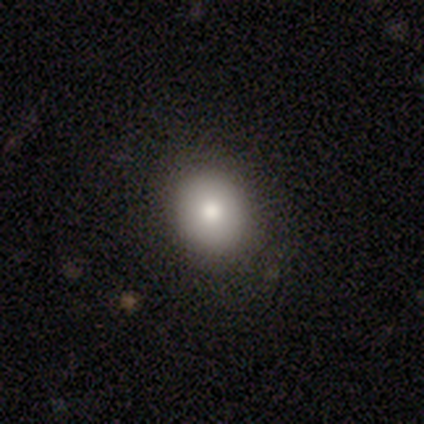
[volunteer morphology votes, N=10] A smooth galaxy with no disk features (90%) that is round (67%).

Vote fractions:
- Smooth or featured? smooth: 90% / star or artifact: 10% / featured or disk: 0%
- How rounded? round: 67% / in between: 33% / cigar-shaped: 0%
- Merging? none: 89% / minor disturbance: 11% / major disturbance: 0% / merger: 0%